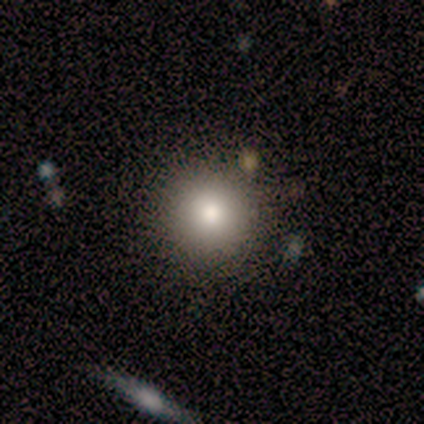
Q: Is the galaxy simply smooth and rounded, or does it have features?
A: smooth — 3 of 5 (60%).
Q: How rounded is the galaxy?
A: round — 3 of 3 (100%).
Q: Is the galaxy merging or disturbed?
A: none — 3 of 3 (100%).